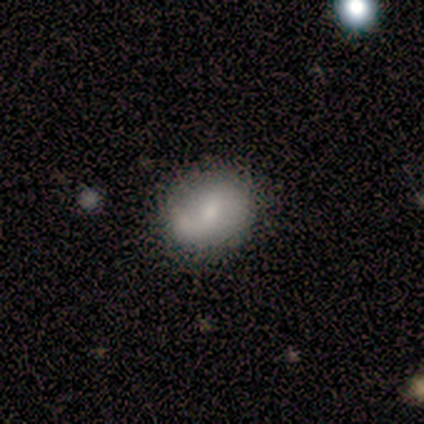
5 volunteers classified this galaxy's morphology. Smooth or featured: smooth — 80% (star or artifact — 20%)
How rounded: in between — 75% (round — 25%)
Merging: none — 75% (merger — 25%)